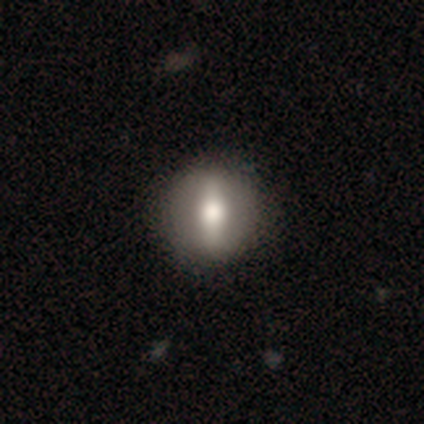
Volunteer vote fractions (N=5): Volunteers were most divided on "smooth or featured": smooth: 60%, featured or disk: 40%, star or artifact: 0%. More confident: merging — none (80%); how rounded — in between (67%).